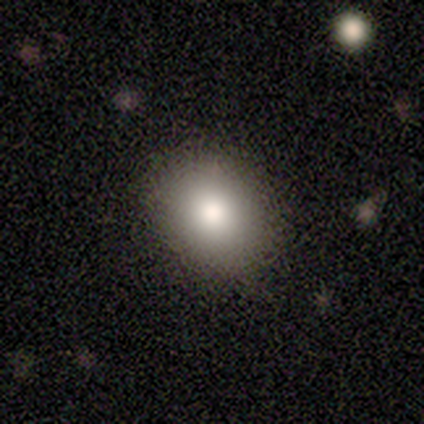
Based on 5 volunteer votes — smooth-or-featured: smooth: 80% | star or artifact: 20% | featured or disk: 0%
  how-rounded: round: 50% (tied) | in between: 50% (tied) | cigar-shaped: 0%
  merging: none: 75% | major disturbance: 25% | minor disturbance: 0% | merger: 0%